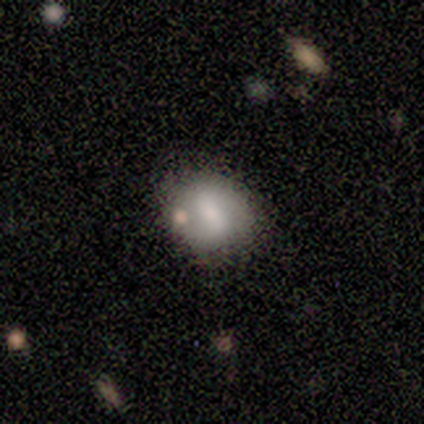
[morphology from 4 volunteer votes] type=smooth (75%); roundness=round (67%); merging=none (75%).